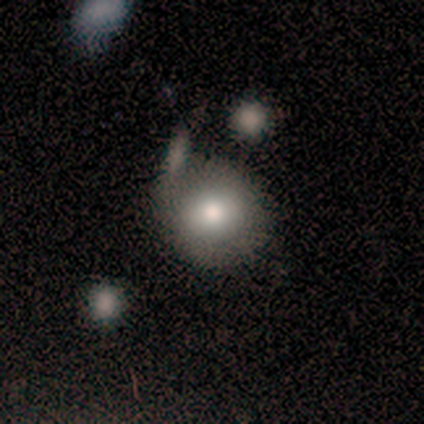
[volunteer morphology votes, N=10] smooth-or-featured: smooth: 90% | featured or disk: 10% | star or artifact: 0%
  how-rounded: round: 78% | in between: 22% | cigar-shaped: 0%
  merging: none: 60% | minor disturbance: 40% | major disturbance: 0% | merger: 0%